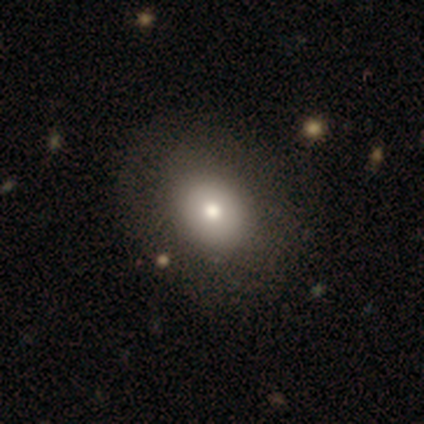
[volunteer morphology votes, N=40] Smooth or featured?
  - smooth: 75% *
  - featured or disk: 18%
  - star or artifact: 8%
How rounded?
  - round: 50% * (tied)
  - in between: 50% * (tied)
  - cigar-shaped: 0%
Merging?
  - none: 68% *
  - minor disturbance: 5%
  - major disturbance: 3%
  - merger: 3%